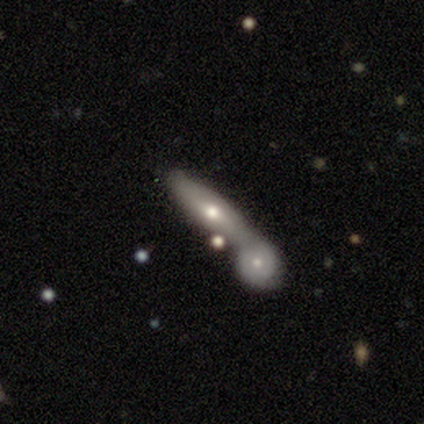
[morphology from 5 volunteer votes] Volunteers were most divided on "smooth or featured": featured or disk: 60%, smooth: 40%, star or artifact: 0%. More confident: edge-on bulge — rounded (100%); merging — merger (80%); edge-on disk — yes (67%).